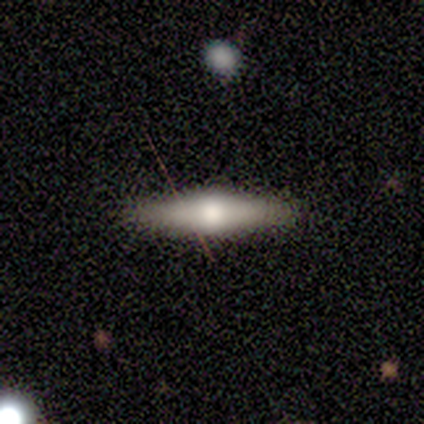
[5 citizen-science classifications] Smooth or featured: featured or disk — 60% (smooth — 40%)
Edge-on disk: yes — 100%
Edge-on bulge: rounded — 100%
Merging: none — 80% (minor disturbance — 20%)